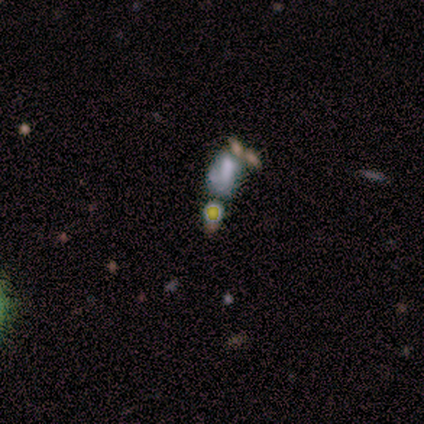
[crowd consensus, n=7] smooth-or-featured: star or artifact: 57% | featured or disk: 29% | smooth: 14%